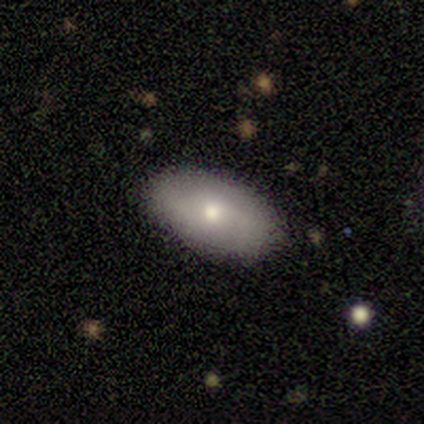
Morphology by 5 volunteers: A featured or disk galaxy (60%) with no bar (100%), no spiral arms (67%) and a moderate central bulge (100%).

Vote fractions:
- Smooth or featured? featured or disk: 60% / smooth: 40% / star or artifact: 0%
- Edge-on disk? no: 100% / yes: 0%
- Bar? no: 100% / strong: 0% / weak: 0%
- Spiral arms? no: 67% / yes: 33%
- Bulge size? moderate: 100% / dominant: 0% / large: 0% / small: 0% / none: 0%
- Merging? none: 80% / minor disturbance: 20% / major disturbance: 0% / merger: 0%